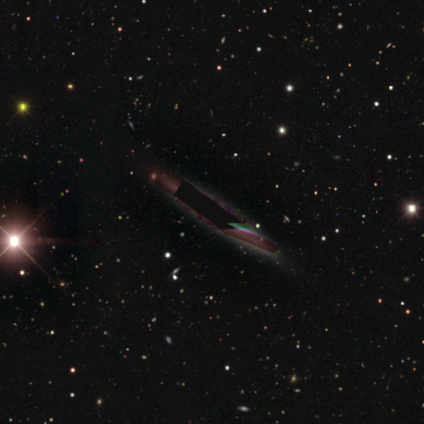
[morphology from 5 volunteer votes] Smooth or featured?
  - star or artifact: 100% *
  - smooth: 0%
  - featured or disk: 0%